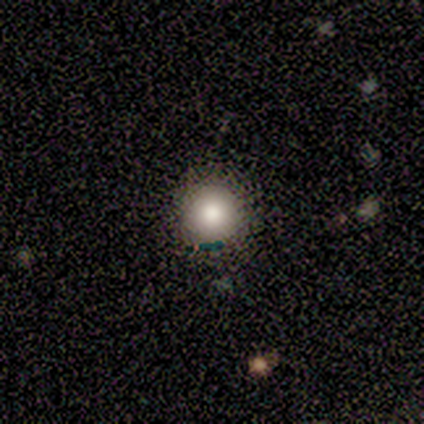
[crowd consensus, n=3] Morphology: type=smooth (67%); roundness=round (100%); merging=none (100%).